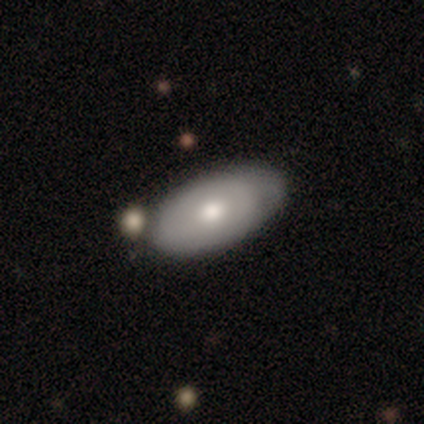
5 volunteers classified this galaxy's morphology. A smooth galaxy with no disk features (80%) that is in between round and cigar-shaped (100%).

Vote fractions:
- Smooth or featured? smooth: 80% / featured or disk: 20% / star or artifact: 0%
- How rounded? in between: 100% / round: 0% / cigar-shaped: 0%
- Merging? none: 80% / merger: 20% / minor disturbance: 0% / major disturbance: 0%